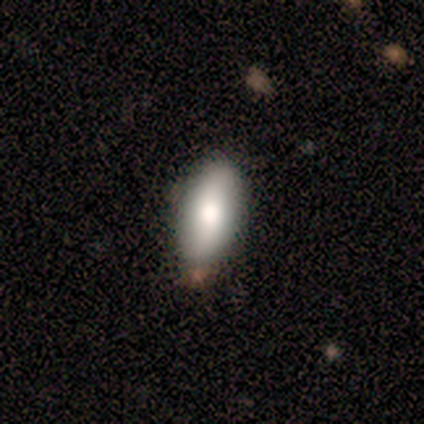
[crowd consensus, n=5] Smooth or featured?
  - smooth: 40% * (tied)
  - featured or disk: 40% * (tied)
  - star or artifact: 20%
How rounded?
  - in between: 100% *
  - round: 0%
  - cigar-shaped: 0%
Merging?
  - none: 100% *
  - minor disturbance: 0%
  - major disturbance: 0%
  - merger: 0%